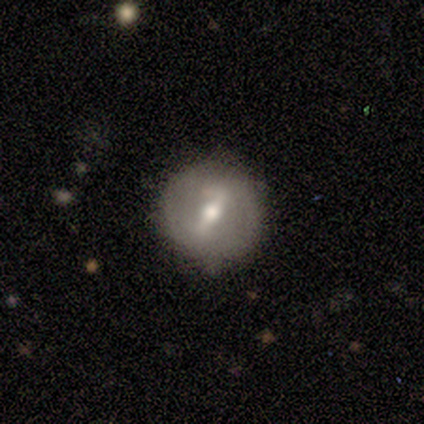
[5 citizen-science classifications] smooth_or_featured: smooth (p=0.60) [alt: featured or disk p=0.40]
how_rounded: round (p=1.00)
merging: none (p=0.80) [alt: minor disturbance p=0.20]